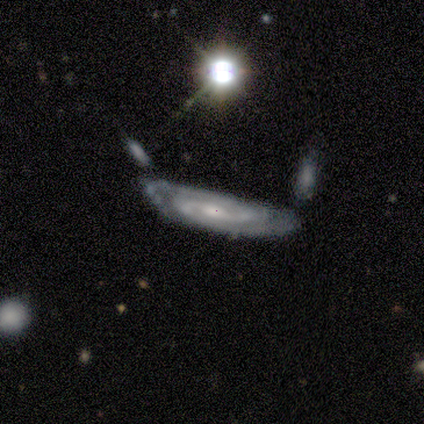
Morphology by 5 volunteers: featured or disk 80%, star or artifact 20%, smooth 0%. Down the decision tree: edge-on disk — no (75%); bar — weak (67%); spiral arms — yes (100%); spiral arm count — 2 (33%, tied with 3 and can't tell); spiral winding — medium (67%); bulge size — moderate (33%, tied with small and none); merging — none (75%).